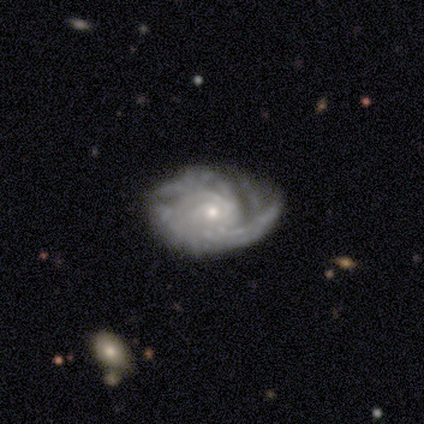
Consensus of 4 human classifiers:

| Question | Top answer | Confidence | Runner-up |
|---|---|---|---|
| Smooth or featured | featured or disk | 75% | star or artifact (25%) |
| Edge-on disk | no | 100% | — |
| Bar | no | 100% | — |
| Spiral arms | yes | 100% | — |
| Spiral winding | medium | 67% | tight (33%) |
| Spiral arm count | more than 4 | 67% | 3 (33%) |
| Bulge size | small | 67% | moderate (33%) |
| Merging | none | 67% | minor disturbance (33%) |